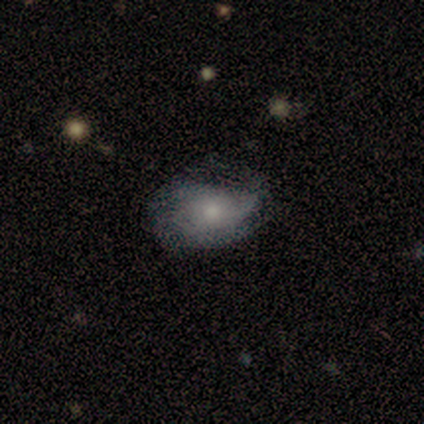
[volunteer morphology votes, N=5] Smooth or featured: smooth — 40% (tied with featured or disk — 40%)
How rounded: round — 50% (tied with in between — 50%)
Merging: minor disturbance — 50% (none — 25%)